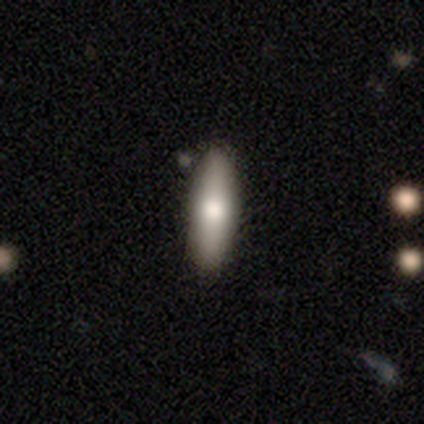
smooth-or-featured: smooth: 68% | featured or disk: 27% | star or artifact: 5%
  how-rounded: in between: 50% (tied) | cigar-shaped: 50% (tied) | round: 0%
  merging: none: 69% | minor disturbance: 8% | major disturbance: 3% | merger: 3%